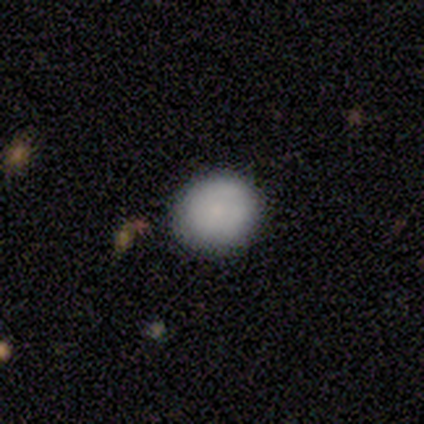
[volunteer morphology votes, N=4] Smooth or featured: smooth — 100%
How rounded: round — 75% (in between — 25%)
Merging: none — 100%